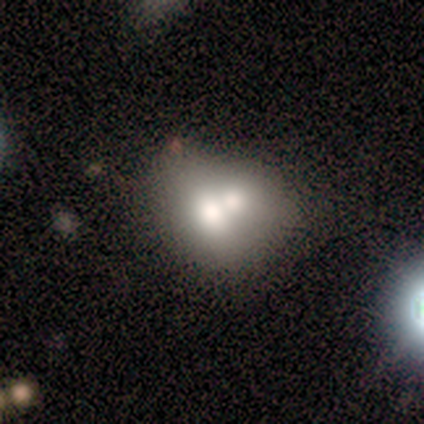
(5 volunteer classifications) Smooth or featured?
  - smooth: 80% *
  - featured or disk: 20%
  - star or artifact: 0%
How rounded?
  - round: 50% * (tied)
  - in between: 50% * (tied)
  - cigar-shaped: 0%
Merging?
  - merger: 60% *
  - none: 40%
  - minor disturbance: 0%
  - major disturbance: 0%